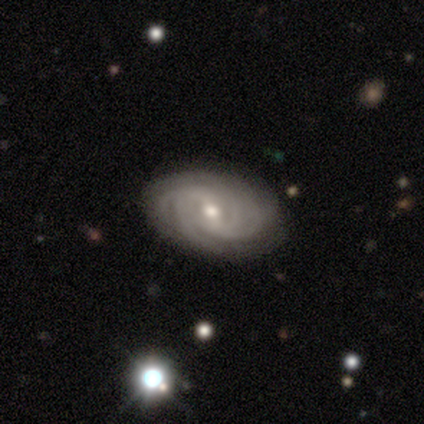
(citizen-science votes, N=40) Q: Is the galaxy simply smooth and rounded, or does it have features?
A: featured or disk — 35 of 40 (88%).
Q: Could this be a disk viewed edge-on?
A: no — 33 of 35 (94%).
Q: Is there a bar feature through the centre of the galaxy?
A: weak — 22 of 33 (67%).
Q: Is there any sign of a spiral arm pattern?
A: yes — 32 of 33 (97%).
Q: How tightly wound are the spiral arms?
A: tight — 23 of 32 (72%).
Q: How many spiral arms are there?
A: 4 — 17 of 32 (53%).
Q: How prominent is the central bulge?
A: small — 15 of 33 (45%).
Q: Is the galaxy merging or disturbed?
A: none — 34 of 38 (89%).